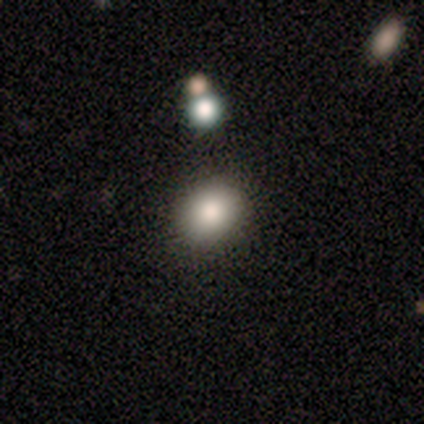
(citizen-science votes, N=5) A smooth galaxy with no disk features (60%) that is in between round and cigar-shaped (100%).

Vote fractions:
- Smooth or featured? smooth: 60% / featured or disk: 20% / star or artifact: 20%
- How rounded? in between: 100% / round: 0% / cigar-shaped: 0%
- Merging? none: 100% / minor disturbance: 0% / major disturbance: 0% / merger: 0%